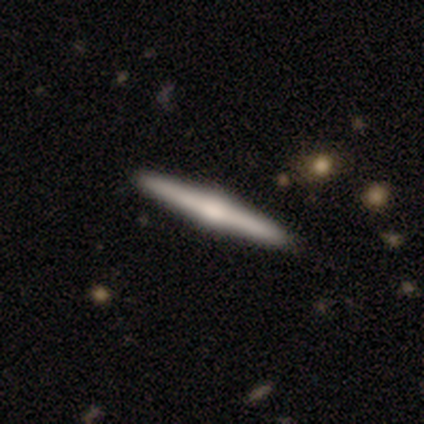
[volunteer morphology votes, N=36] Smooth or featured: featured or disk — 78% (smooth — 19%)
Edge-on disk: yes — 96% (no — 4%)
Edge-on bulge: rounded — 78% (boxy — 11%)
Merging: none — 69% (minor disturbance — 6%)